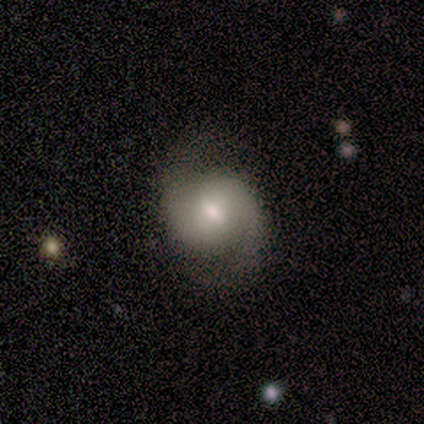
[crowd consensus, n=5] A featured or disk galaxy (80%) with no bar (75%), 2 (100%) loose (100%) spiral arms (100%) and a small central bulge (50%). Merging: none (50%, tied with minor disturbance).